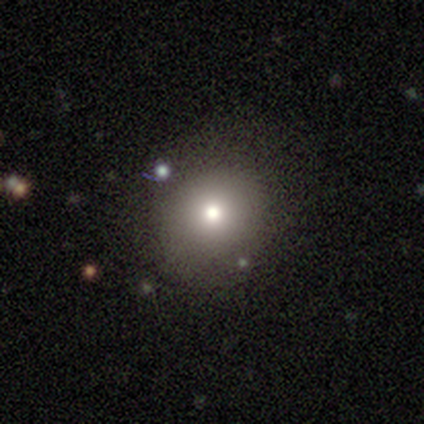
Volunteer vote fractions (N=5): Morphology: type=smooth (80%); roundness=round (100%); merging=none (75%).